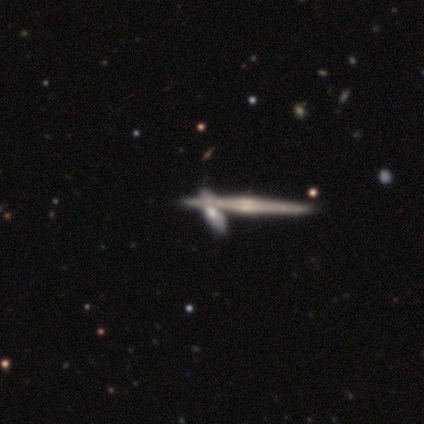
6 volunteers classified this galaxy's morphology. This is likely a featured or disk galaxy (67%). It is clearly viewed edge-on (100%). Edge-on bulge: likely rounded (75%). Merging: clearly none (80%).